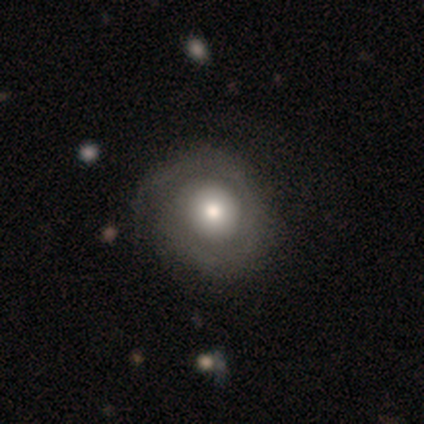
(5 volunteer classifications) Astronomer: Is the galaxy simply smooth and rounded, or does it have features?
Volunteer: featured or disk — 60%.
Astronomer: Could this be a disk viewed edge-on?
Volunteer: no — 100%.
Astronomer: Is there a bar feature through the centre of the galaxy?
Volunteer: no — 100%.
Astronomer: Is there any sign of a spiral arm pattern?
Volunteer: yes — 67%.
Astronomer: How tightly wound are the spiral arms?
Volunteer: tight — 100%.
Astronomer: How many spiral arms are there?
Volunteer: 2 — 50%, tied with can't tell at 50%.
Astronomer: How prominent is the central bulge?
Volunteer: moderate — 67%.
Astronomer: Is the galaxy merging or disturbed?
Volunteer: none — 100%.